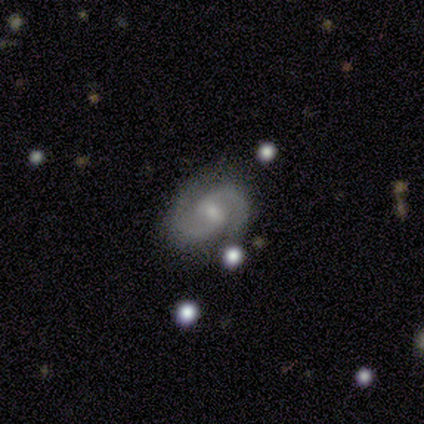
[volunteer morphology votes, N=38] This is likely a featured or disk galaxy (79%). It is clearly not viewed edge-on (100%). Bar: likely weak (67%). Spiral arm pattern: clearly yes (97%). Spiral arm count: clearly 2 (100%). Spiral winding: likely medium (66%). Central bulge: possibly small (53%). Merging: likely none (76%).